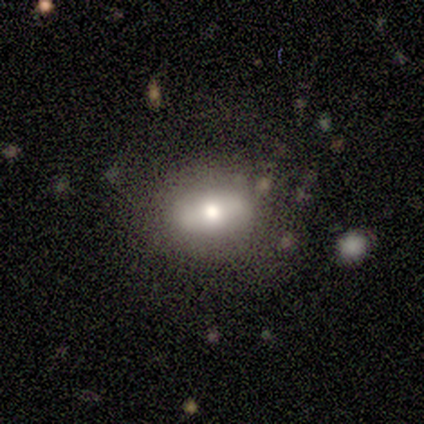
Smooth or featured?
  - smooth: 100% *
  - featured or disk: 0%
  - star or artifact: 0%
How rounded?
  - in between: 80% *
  - round: 20%
  - cigar-shaped: 0%
Merging?
  - none: 80% *
  - minor disturbance: 20%
  - major disturbance: 0%
  - merger: 0%